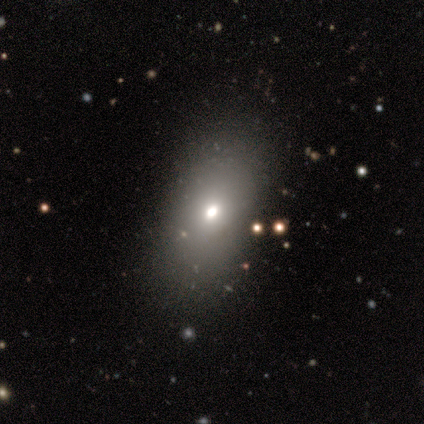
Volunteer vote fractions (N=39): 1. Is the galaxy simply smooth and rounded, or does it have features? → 67% smooth, 18% star or artifact, 15% featured or disk.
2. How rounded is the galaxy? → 85% in between, 12% cigar-shaped, 4% round.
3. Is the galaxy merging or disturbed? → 81% none, 12% minor disturbance, 6% major disturbance, 0% merger.